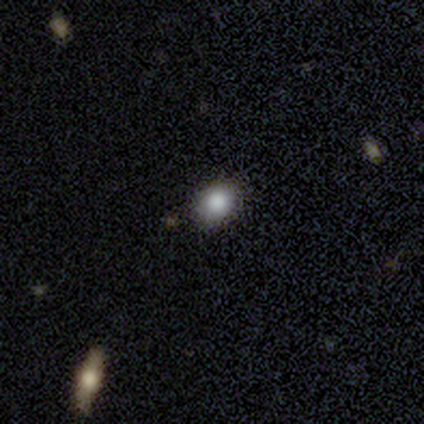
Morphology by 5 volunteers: Overall: smooth (80%). How rounded: round (50%, tied with in between). Merging: none (75%).